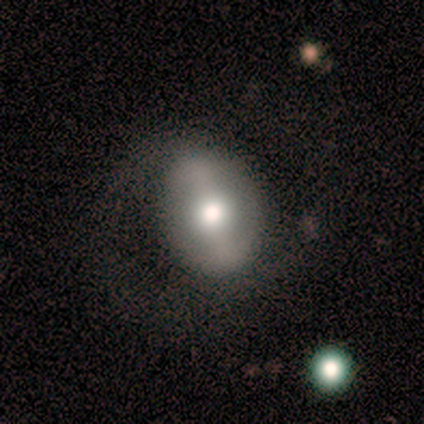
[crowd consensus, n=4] Smooth or featured? smooth (50%, tied with featured or disk)
How rounded? round (100%)
Merging? none (50%)